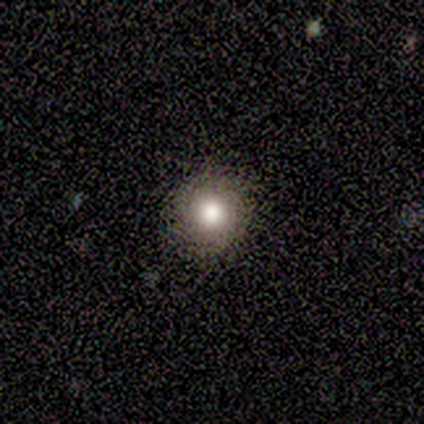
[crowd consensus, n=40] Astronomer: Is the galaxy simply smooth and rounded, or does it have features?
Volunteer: smooth — 80%.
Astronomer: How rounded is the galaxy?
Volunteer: round — 94%.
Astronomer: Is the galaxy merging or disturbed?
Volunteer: none — 94%.